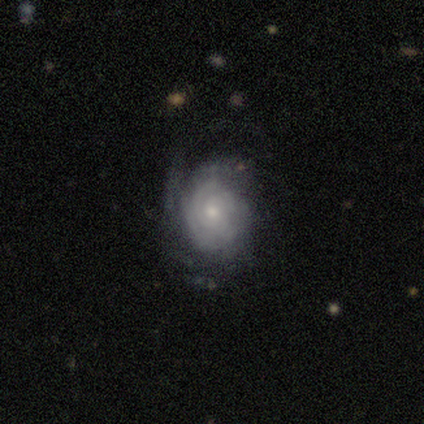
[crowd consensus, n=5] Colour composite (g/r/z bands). It shows a featured or disk galaxy (60%) with no bar (100%), 2 (33%, tied with 3 and can't tell) tight (100%) spiral arms (100%) and a moderate central bulge (100%). Merging: minor disturbance (80%).